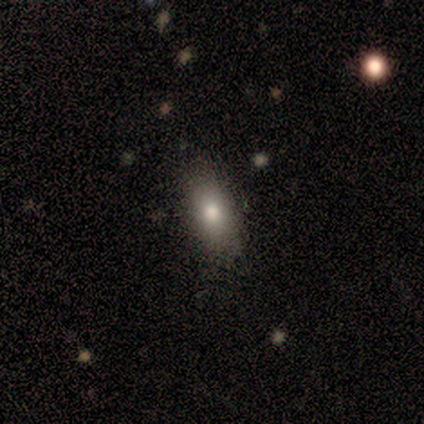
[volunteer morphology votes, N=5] type=smooth (80%); roundness=in between (100%); merging=none (80%).